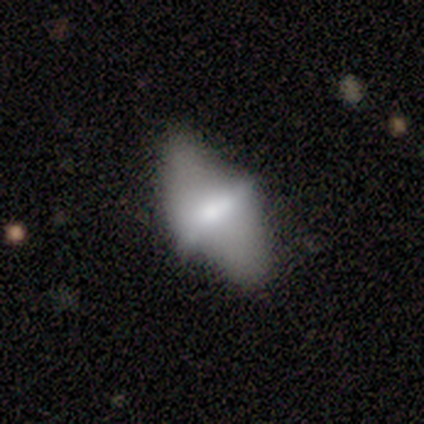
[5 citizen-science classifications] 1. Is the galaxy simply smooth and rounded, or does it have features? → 80% featured or disk, 20% smooth, 0% star or artifact.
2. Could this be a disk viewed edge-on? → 75% no, 25% yes.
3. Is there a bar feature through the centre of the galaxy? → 67% strong, 33% no, 0% weak.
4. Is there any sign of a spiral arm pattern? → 100% no, 0% yes.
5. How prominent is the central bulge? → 33% dominant (tied), 33% moderate (tied), 33% small (tied), 0% large, 0% none.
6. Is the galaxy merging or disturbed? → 40% none (tied), 40% minor disturbance (tied), 20% major disturbance, 0% merger.